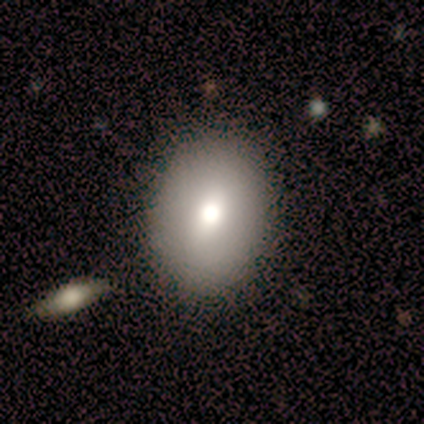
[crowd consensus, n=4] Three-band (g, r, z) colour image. It shows a smooth galaxy with no disk features (100%) that is in between round and cigar-shaped (75%). Merging: none (50%, tied with minor disturbance).